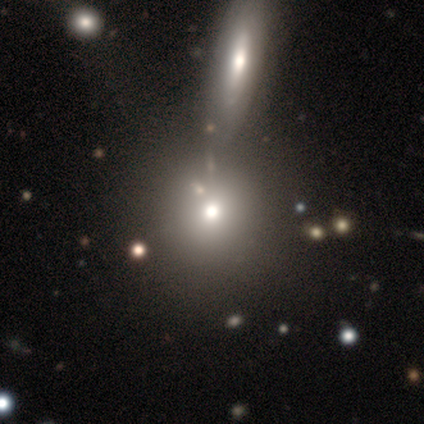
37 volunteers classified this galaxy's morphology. smooth_or_featured: smooth (p=0.68) [alt: featured or disk p=0.16]
how_rounded: round (p=0.80) [alt: in between p=0.20]
merging: none (p=0.48) [alt: merger p=0.35]